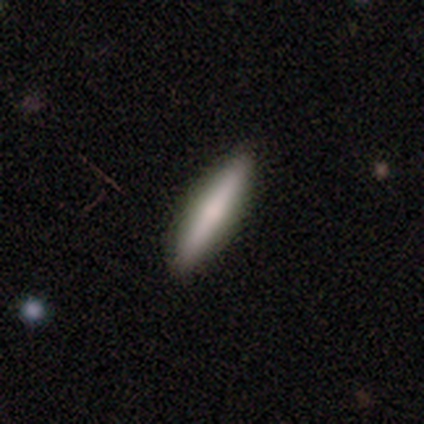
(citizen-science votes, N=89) A smooth galaxy with no disk features (63%) that is cigar-shaped (91%).

Vote fractions:
- Smooth or featured? smooth: 63% / featured or disk: 33% / star or artifact: 4%
- How rounded? cigar-shaped: 91% / in between: 9% / round: 0%
- Merging? none: 89% / minor disturbance: 7% / major disturbance: 4% / merger: 0%